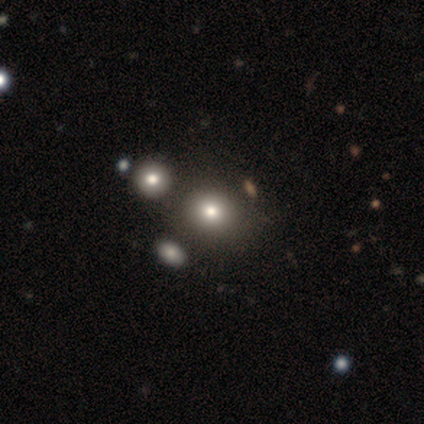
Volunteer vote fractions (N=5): Smooth or featured? smooth (60%)
How rounded? round (100%)
Merging? none (100%)